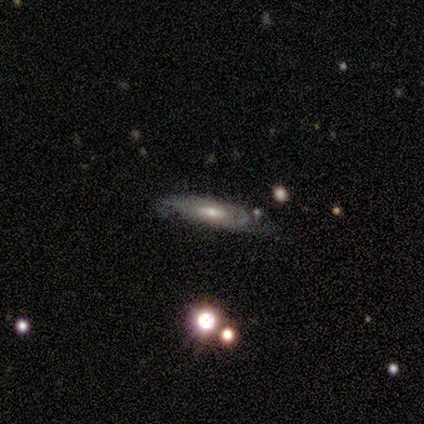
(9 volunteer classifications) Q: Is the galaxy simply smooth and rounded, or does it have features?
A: featured or disk — 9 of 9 (100%).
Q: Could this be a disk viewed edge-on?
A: no — 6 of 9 (67%).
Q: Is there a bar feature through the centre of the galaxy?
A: no — 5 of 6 (83%).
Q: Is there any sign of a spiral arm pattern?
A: yes — 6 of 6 (100%).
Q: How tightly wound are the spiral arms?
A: tight — 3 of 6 (50%).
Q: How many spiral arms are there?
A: can't tell — 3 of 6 (50%).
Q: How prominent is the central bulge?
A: moderate — 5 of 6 (83%).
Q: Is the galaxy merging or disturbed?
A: none — 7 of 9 (78%).